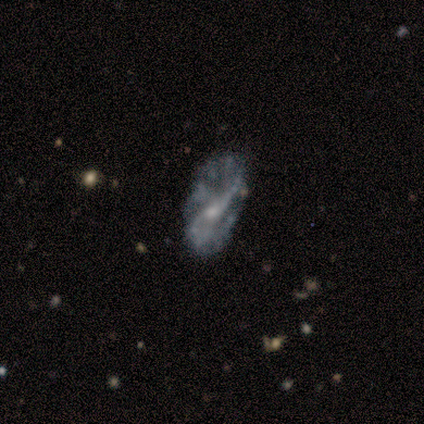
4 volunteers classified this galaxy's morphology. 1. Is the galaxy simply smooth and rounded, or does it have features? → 50% smooth (tied), 50% featured or disk (tied), 0% star or artifact.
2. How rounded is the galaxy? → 100% in between, 0% round, 0% cigar-shaped.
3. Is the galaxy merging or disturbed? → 100% none, 0% minor disturbance, 0% major disturbance, 0% merger.